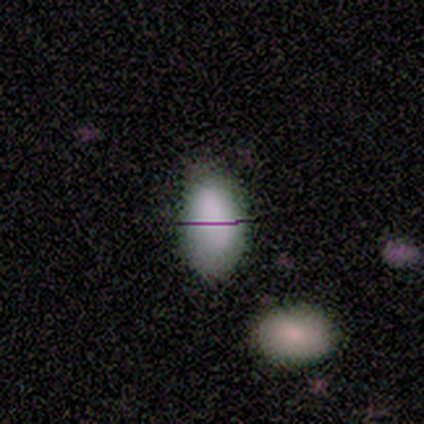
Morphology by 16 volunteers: smooth 88%, featured or disk 6%, star or artifact 6%. Down the decision tree: how rounded — in between (100%); merging — none (93%).